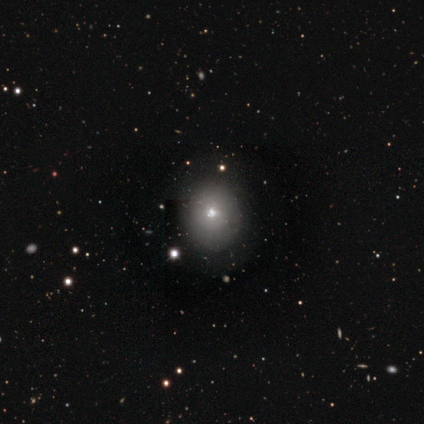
smooth_or_featured: smooth (p=0.67) [alt: featured or disk p=0.33]
how_rounded: round (p=0.50) [tied with: in between p=0.50]
merging: minor disturbance (p=0.67) [alt: none p=0.33]